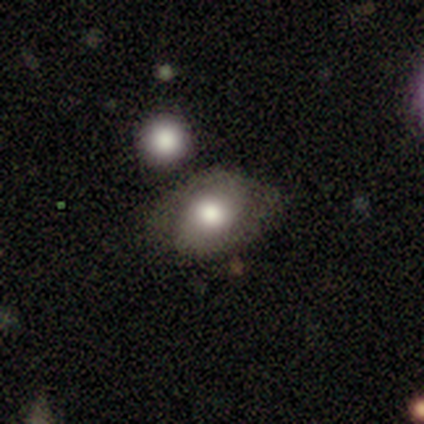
Q: Smooth or featured?
A: featured or disk (60%); runner-up: smooth (40%)
Q: Edge-on disk?
A: no (100%)
Q: Bar?
A: no (67%); runner-up: weak (33%)
Q: Spiral arms?
A: no (67%); runner-up: yes (33%)
Q: Bulge size?
A: moderate (67%); runner-up: large (33%)
Q: Merging?
A: none (60%); runner-up: major disturbance (20%)